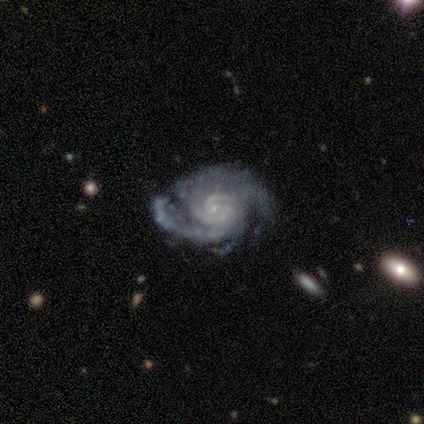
Overall: featured or disk (100%). Edge-on disk: no (100%). Bar: no (60%; weak 40%). Spiral arms: yes (100%). Spiral arm count: can't tell (40%; 2 20%). Spiral winding: tight (60%; medium 40%). Bulge size: small (60%; none 40%). Merging: none (60%; minor disturbance 40%).